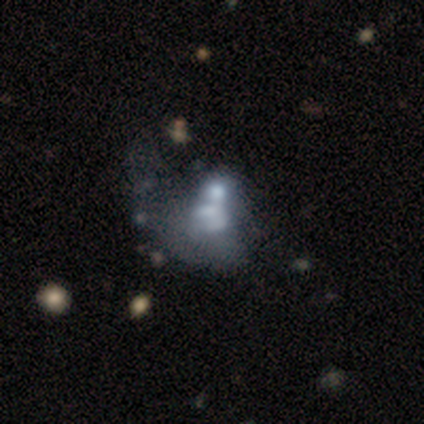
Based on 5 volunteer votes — Smooth or featured? featured or disk (100%)
Edge-on disk? no (100%)
Bar? no (100%)
Spiral arms? no (80%)
Bulge size? none (80%)
Merging? merger (80%)